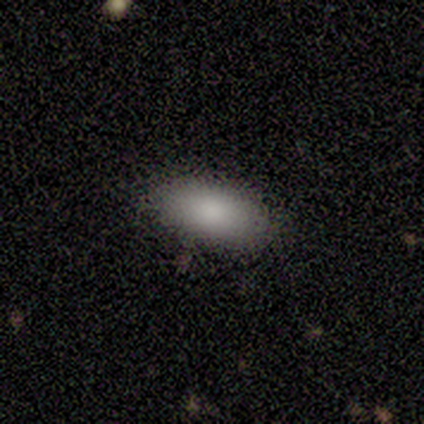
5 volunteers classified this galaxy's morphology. smooth_or_featured: smooth (p=1.00)
how_rounded: in between (p=1.00)
merging: none (p=1.00)